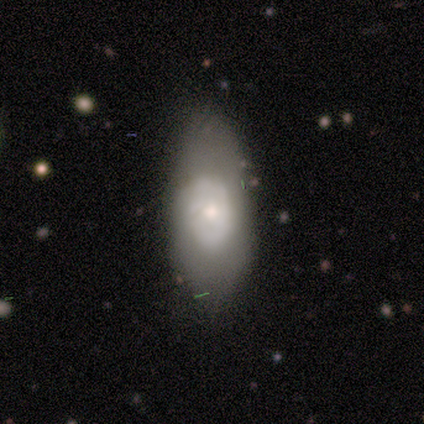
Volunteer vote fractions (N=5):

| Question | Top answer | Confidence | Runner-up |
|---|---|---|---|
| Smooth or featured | featured or disk | 60% | smooth (40%) |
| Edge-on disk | no | 100% | — |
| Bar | no | 100% | — |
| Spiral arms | no | 100% | — |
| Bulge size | moderate | 67% | small (33%) |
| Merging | minor disturbance | 60% | none (40%) |